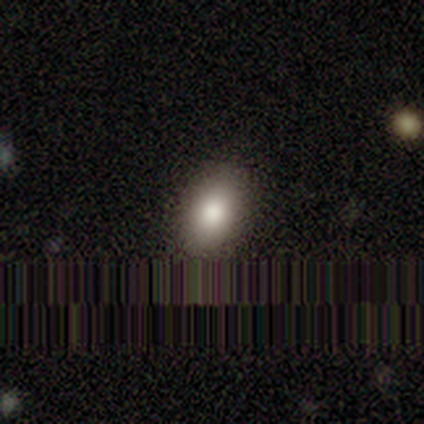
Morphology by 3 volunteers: Smooth or featured? smooth (67%)
How rounded? round (50%, tied with in between)
Merging? none (100%)